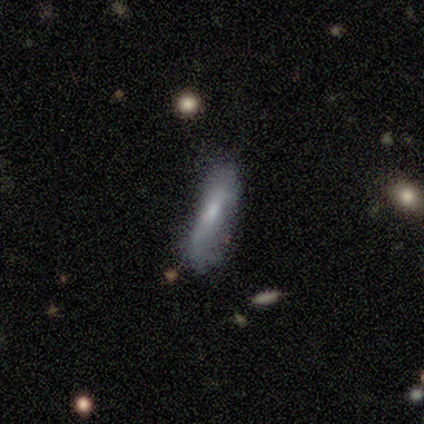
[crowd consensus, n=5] A smooth galaxy with no disk features (80%) that is cigar-shaped (75%).

Vote fractions:
- Smooth or featured? smooth: 80% / featured or disk: 20% / star or artifact: 0%
- How rounded? cigar-shaped: 75% / in between: 25% / round: 0%
- Merging? none: 60% / minor disturbance: 40% / major disturbance: 0% / merger: 0%